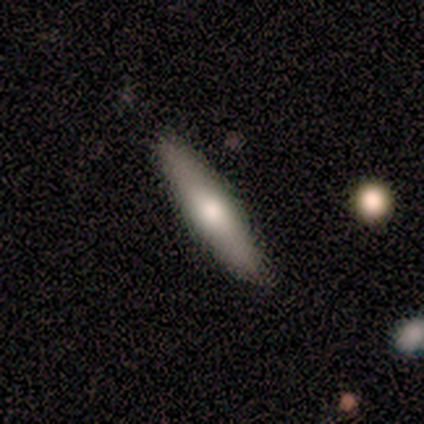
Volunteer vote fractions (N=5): Smooth or featured? smooth (60%)
How rounded? cigar-shaped (100%)
Merging? none (80%)